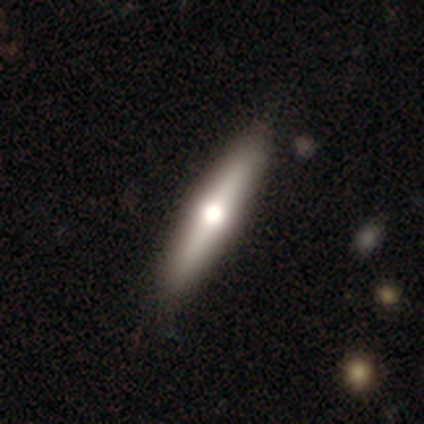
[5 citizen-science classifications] Volunteers were most divided on "edge-on bulge": rounded: 67%, boxy: 33%, none: 0%. More confident: edge-on disk — yes (100%); merging — none (100%); smooth or featured — featured or disk (60%).